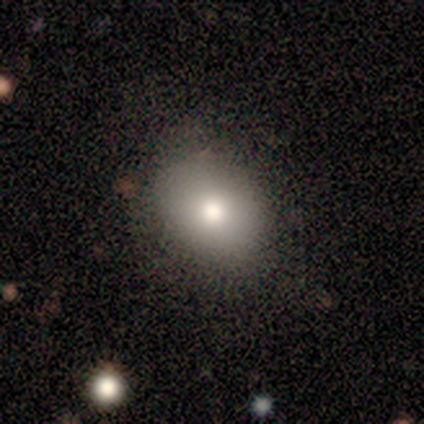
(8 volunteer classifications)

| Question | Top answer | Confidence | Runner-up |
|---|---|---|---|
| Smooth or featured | smooth | 88% | featured or disk (12%) |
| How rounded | round | 57% | in between (43%) |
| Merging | none | 75% | minor disturbance (25%) |